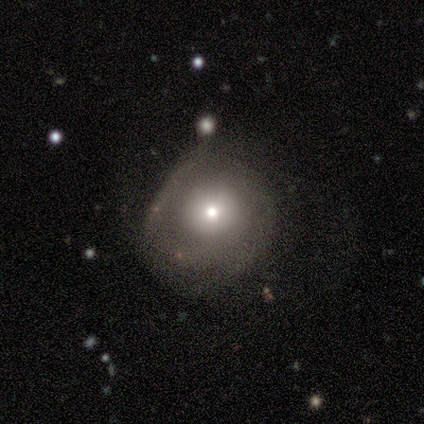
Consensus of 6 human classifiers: This appears to be a featured or disk galaxy (50%) with no bar (67%), no spiral arms (67%) and a moderate central bulge (67%). Merging: none (40%, tied with minor disturbance).